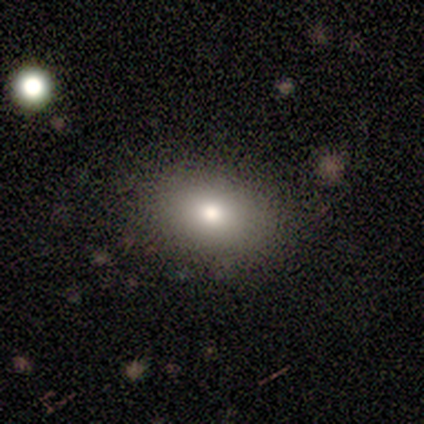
Q: Smooth or featured?
A: smooth (71%); runner-up: star or artifact (29%)
Q: How rounded?
A: in between (80%); runner-up: round (20%)
Q: Merging?
A: none (80%); runner-up: minor disturbance (20%)